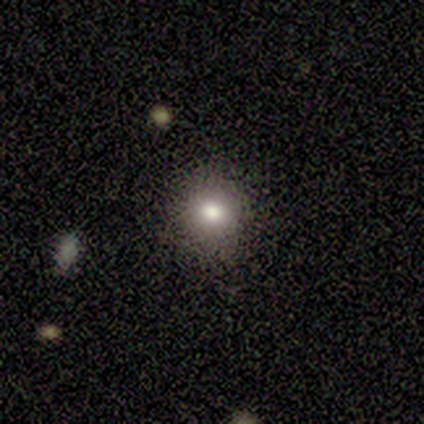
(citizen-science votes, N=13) Volunteers were most divided on "smooth or featured": smooth: 69%, star or artifact: 23%, featured or disk: 8%. More confident: merging — none (90%); how rounded — round (89%).